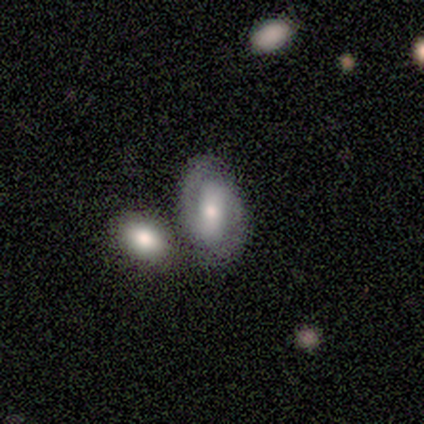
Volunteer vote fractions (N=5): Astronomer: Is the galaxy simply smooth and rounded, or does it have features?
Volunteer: featured or disk — 80%.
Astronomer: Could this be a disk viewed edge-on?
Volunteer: no — 100%.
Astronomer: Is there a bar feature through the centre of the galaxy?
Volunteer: strong — 75%.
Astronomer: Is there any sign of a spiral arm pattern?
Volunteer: yes — 100%.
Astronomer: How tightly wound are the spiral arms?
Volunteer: tight — 75%.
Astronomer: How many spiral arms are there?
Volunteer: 2 — 100%.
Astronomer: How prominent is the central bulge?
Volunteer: moderate — 75%.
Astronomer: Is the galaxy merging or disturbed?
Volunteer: none — 50%, tied with merger at 50%.